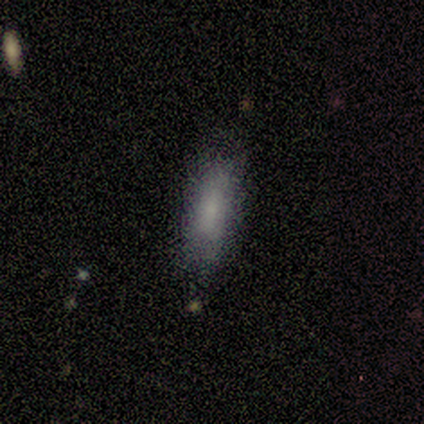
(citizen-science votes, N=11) Smooth or featured? smooth (82%)
How rounded? in between (67%)
Merging? none (60%)